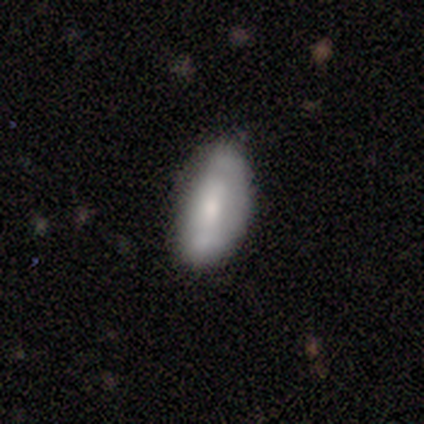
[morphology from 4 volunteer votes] smooth-or-featured: smooth: 100% | featured or disk: 0% | star or artifact: 0%
  how-rounded: in between: 75% | cigar-shaped: 25% | round: 0%
  merging: none: 75% | minor disturbance: 25% | major disturbance: 0% | merger: 0%